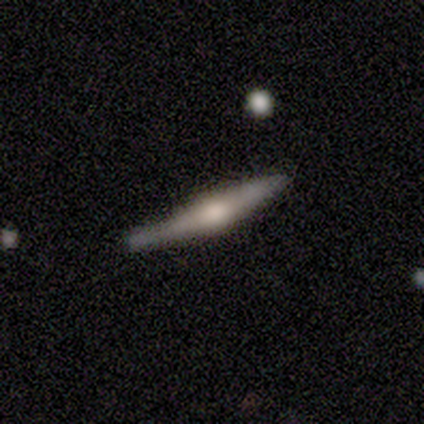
A featured or disk galaxy (60%) viewed edge-on (100%) with a rounded central bulge (67%). Merging: none (80%).